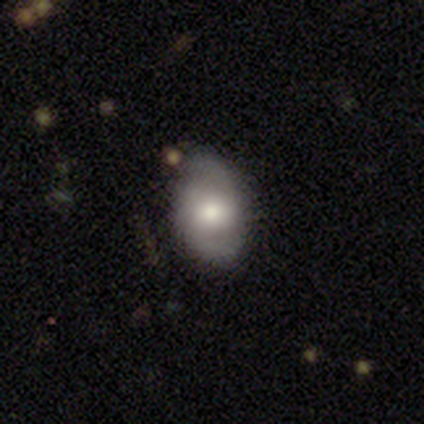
This is likely a featured or disk galaxy (60%). It is clearly not viewed edge-on (100%). Bar: likely no (67%). Spiral arm pattern: likely yes (67%). Spiral arm count: possibly 2 (50%, tied with 3). Spiral winding: possibly tight (50%, tied with medium). Central bulge: likely moderate (67%). Merging: clearly none (80%).